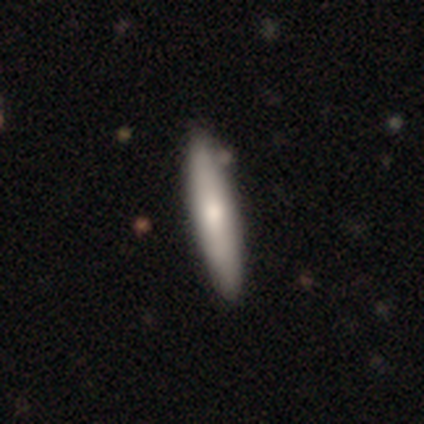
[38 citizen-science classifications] Morphology: type=smooth (74%); roundness=cigar-shaped (89%); merging=none (61%).